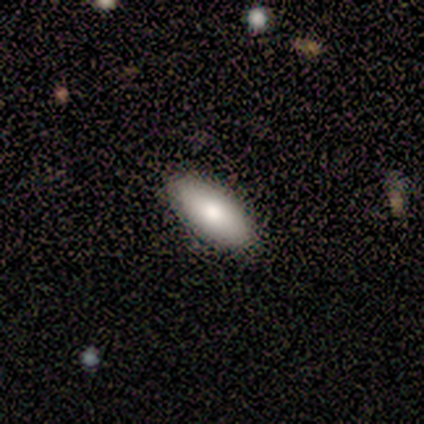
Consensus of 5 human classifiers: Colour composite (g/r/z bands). It shows a smooth galaxy with no disk features (80%) that is in between round and cigar-shaped (75%). Merging: none (75%).